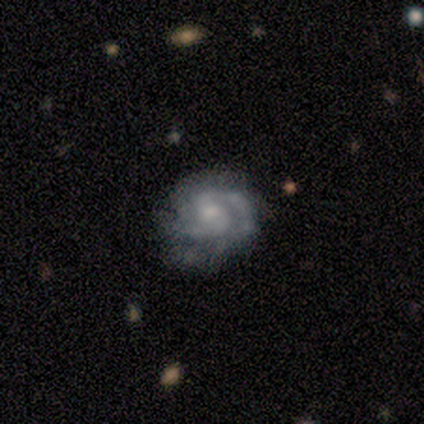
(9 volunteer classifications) Morphology: type=featured or disk (78%); edge-on=no (100%); bar=weak (57%); spiral arms=yes (86%); winding=tight (50%, tied with medium); arm count=2 (83%); bulge=moderate (57%); merging=none (56%).